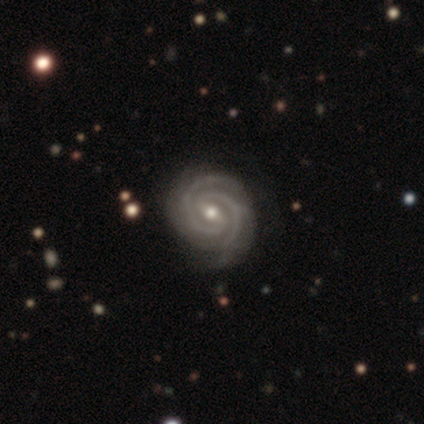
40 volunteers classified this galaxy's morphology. A featured or disk galaxy (92%) with a weak bar (59%), 2 (97%) tight (76%) spiral arms (100%) and a moderate central bulge (49%). Merging: none (78%).